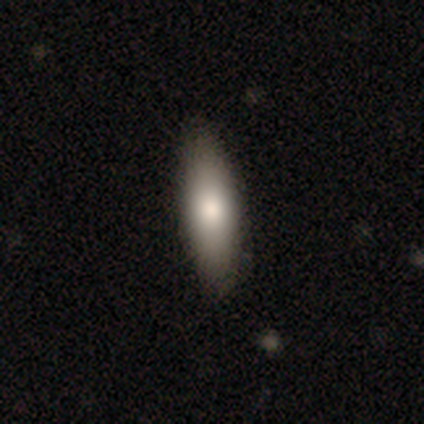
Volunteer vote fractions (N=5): Volunteers were most divided on "how rounded": in between: 75%, cigar-shaped: 25%, round: 0%. More confident: merging — none (100%); smooth or featured — smooth (80%).